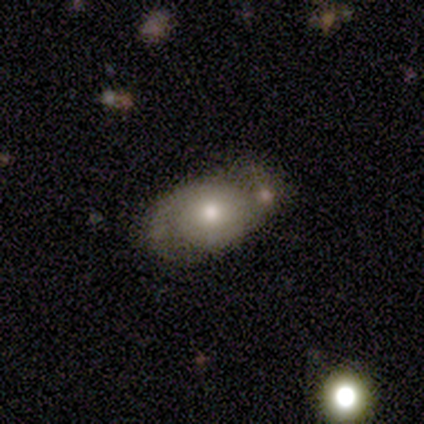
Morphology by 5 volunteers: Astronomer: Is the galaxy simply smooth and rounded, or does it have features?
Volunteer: featured or disk — 40%, tied with star or artifact at 40%.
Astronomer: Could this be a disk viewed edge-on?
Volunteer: no — 100%.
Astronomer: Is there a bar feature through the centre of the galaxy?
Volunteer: weak — 50%, tied with no at 50%.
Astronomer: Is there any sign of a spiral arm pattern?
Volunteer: yes — 100%.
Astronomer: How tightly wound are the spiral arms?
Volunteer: medium — 50%, tied with loose at 50%.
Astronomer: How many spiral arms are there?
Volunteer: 2 — 50%, tied with 3 at 50%.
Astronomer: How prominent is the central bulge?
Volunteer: moderate — 50%, tied with small at 50%.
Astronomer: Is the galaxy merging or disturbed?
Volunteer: none — 67%.